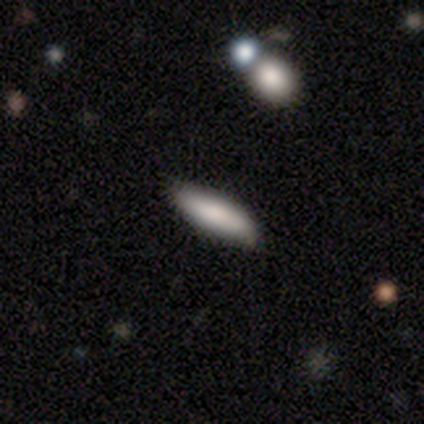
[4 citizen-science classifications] Smooth or featured? 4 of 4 (100%) said smooth. How rounded? 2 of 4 (50%, tied with cigar-shaped) said in between. Merging? 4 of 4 (100%) said none.